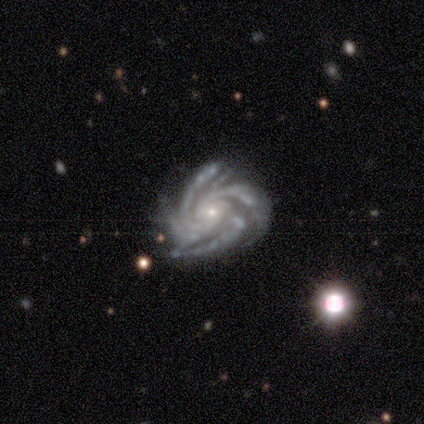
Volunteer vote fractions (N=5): Volunteers were most divided on "bar" (2-way tie): weak: 40%, no: 40%, strong: 20%. More confident: smooth or featured — featured or disk (100%); edge-on disk — no (100%); spiral arms — yes (100%); bulge size — small (100%); spiral winding — tight (60%); spiral arm count — more than 4 (60%); merging — none (60%).